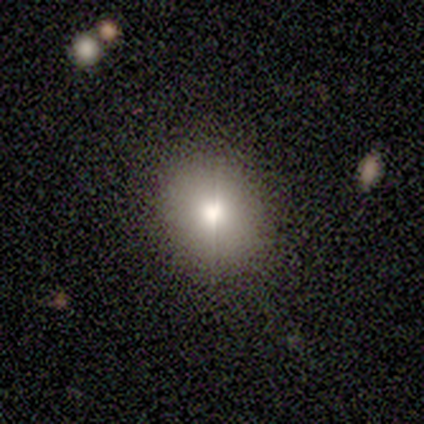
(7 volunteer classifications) This is likely a smooth galaxy (71%). How rounded: likely in between (60%). Merging: clearly none (80%).